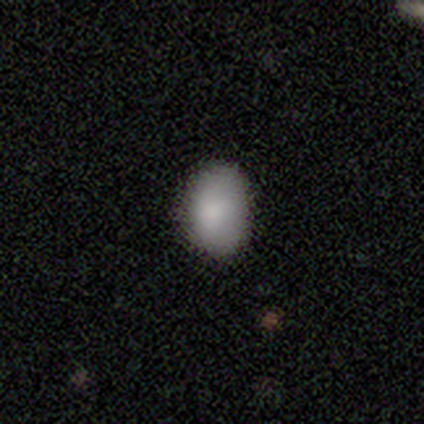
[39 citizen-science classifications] This is clearly a smooth galaxy (87%). How rounded: clearly in between (88%). Merging: likely none (68%).